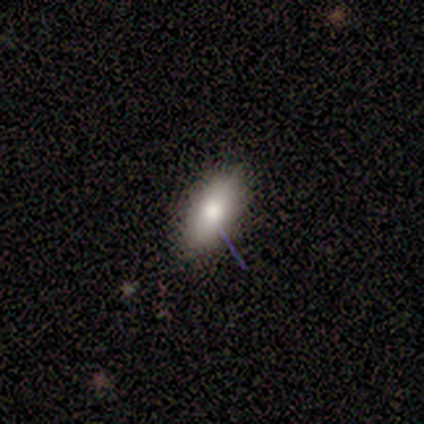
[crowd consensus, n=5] Volunteers were most divided on "smooth or featured": smooth: 60%, featured or disk: 20%, star or artifact: 20%. More confident: how rounded — in between (100%); merging — none (100%).